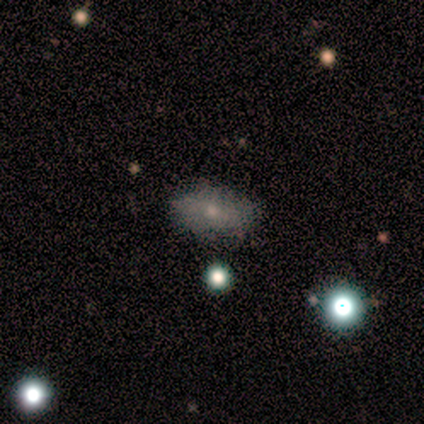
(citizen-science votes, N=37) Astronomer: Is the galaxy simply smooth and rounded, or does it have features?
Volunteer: smooth — 70%.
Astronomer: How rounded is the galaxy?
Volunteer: in between — 92%.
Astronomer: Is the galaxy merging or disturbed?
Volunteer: none — 83%.